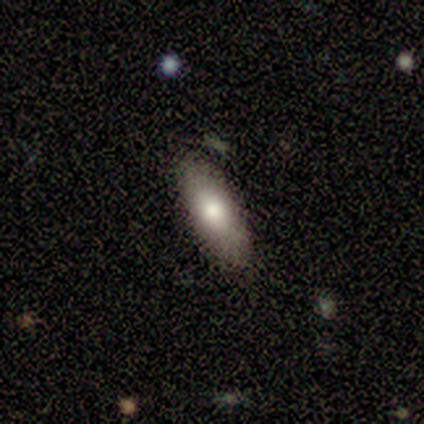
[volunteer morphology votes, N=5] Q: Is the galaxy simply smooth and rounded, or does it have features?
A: smooth — 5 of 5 (100%).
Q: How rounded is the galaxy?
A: cigar-shaped — 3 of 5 (60%).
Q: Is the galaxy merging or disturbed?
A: none — 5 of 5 (100%).